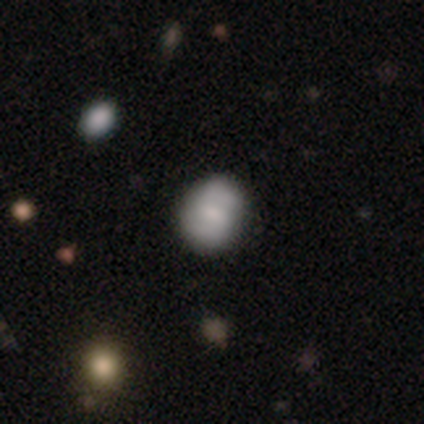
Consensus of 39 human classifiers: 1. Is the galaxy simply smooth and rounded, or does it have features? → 67% smooth, 33% featured or disk, 0% star or artifact.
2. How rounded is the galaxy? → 54% round, 42% in between, 4% cigar-shaped.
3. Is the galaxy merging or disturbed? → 74% none, 23% minor disturbance, 3% major disturbance, 0% merger.